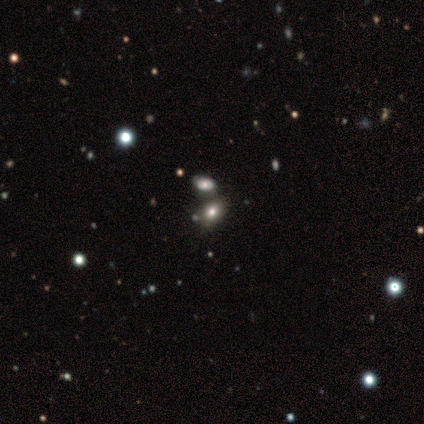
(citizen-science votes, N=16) A smooth galaxy with no disk features (62%) that is in between round and cigar-shaped (90%). Merging: none (46%).